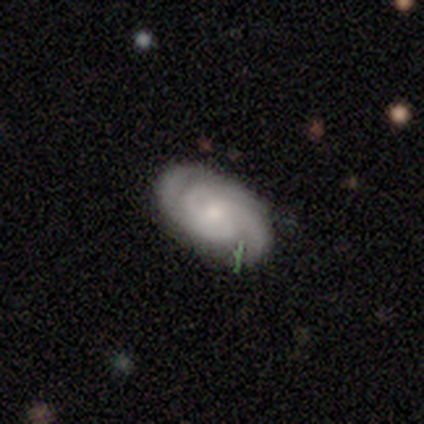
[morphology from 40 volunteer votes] featured or disk 85%, smooth 12%, star or artifact 2%. Down the decision tree: edge-on disk — no (91%); bar — no (65%); spiral arms — yes (94%); spiral arm count — 3 (48%); spiral winding — tight (59%); bulge size — small (61%); merging — none (72%).